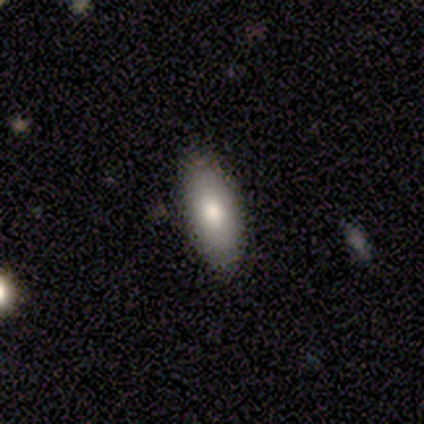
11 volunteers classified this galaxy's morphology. This is likely a smooth galaxy (64%). How rounded: clearly in between (100%). Merging: clearly none (90%).